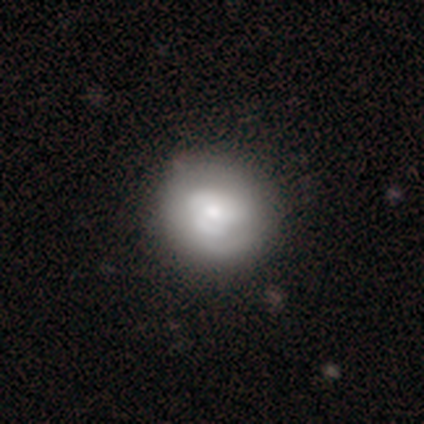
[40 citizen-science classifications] Q: Smooth or featured?
A: smooth (60%); runner-up: featured or disk (38%)
Q: How rounded?
A: round (92%); runner-up: in between (8%)
Q: Merging?
A: none (59%); runner-up: minor disturbance (13%)